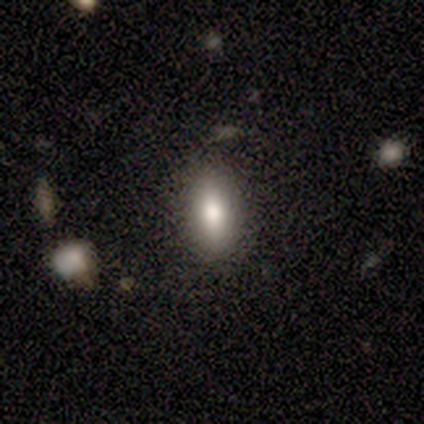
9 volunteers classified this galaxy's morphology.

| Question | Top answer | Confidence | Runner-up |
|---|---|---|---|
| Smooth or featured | smooth | 78% | featured or disk (22%) |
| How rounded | in between | 86% | round (14%) |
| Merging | none | 89% | merger (11%) |